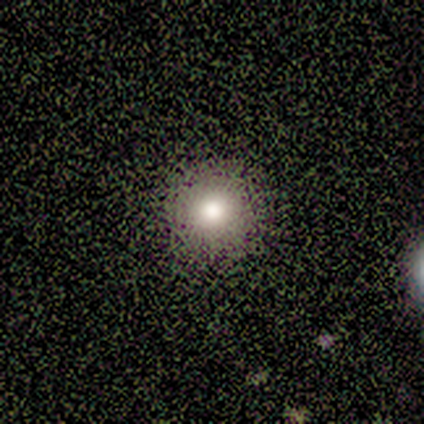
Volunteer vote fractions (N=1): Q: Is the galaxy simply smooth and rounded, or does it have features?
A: smooth — 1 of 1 (100%).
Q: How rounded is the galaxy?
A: round — 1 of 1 (100%).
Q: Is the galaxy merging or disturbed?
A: none — 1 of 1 (100%).